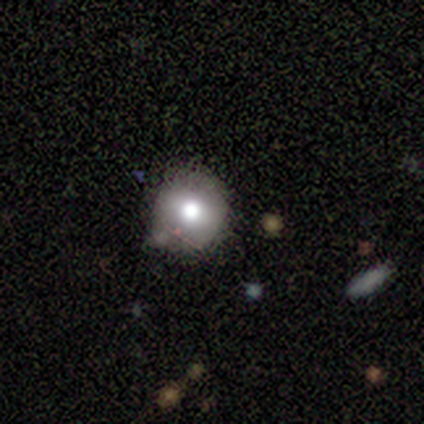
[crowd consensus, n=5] Overall: smooth (60%; featured or disk 40%). How rounded: round (100%). Merging: none (80%).